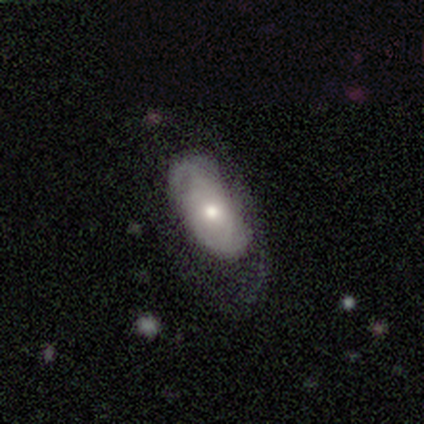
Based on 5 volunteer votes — Smooth or featured? 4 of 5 (80%) said featured or disk. Edge-on disk? 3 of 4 (75%) said no. Bar? 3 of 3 (100%) said no. Spiral arms? 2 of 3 (67%) said no. Bulge size? 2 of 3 (67%) said moderate. Merging? 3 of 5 (60%) said none.